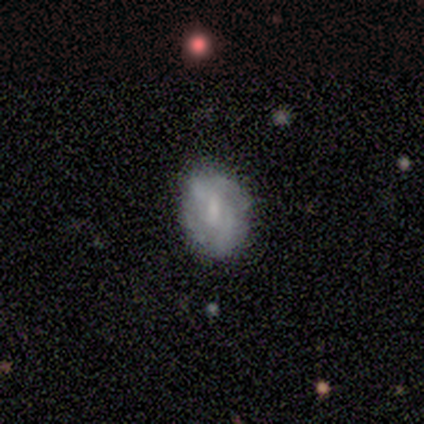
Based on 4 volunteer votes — smooth-or-featured: smooth: 50% (tied) | featured or disk: 50% (tied) | star or artifact: 0%
  how-rounded: in between: 100% | round: 0% | cigar-shaped: 0%
  merging: none: 75% | minor disturbance: 25% | major disturbance: 0% | merger: 0%